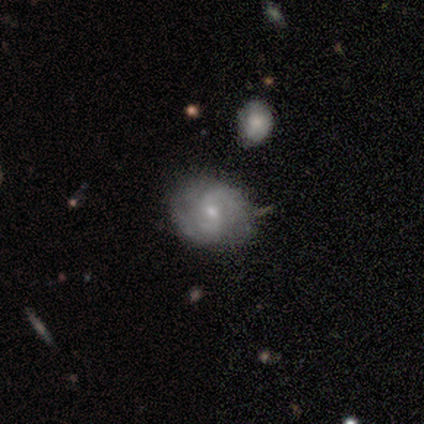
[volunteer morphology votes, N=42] Smooth or featured: featured or disk — 76% (smooth — 17%)
Edge-on disk: no — 97% (yes — 3%)
Bar: no — 52% (weak — 42%)
Spiral arms: yes — 90% (no — 10%)
Spiral winding: medium — 57% (tight — 36%)
Spiral arm count: 2 — 57% (can't tell — 36%)
Bulge size: small — 74% (moderate — 26%)
Merging: none — 74% (minor disturbance — 18%)